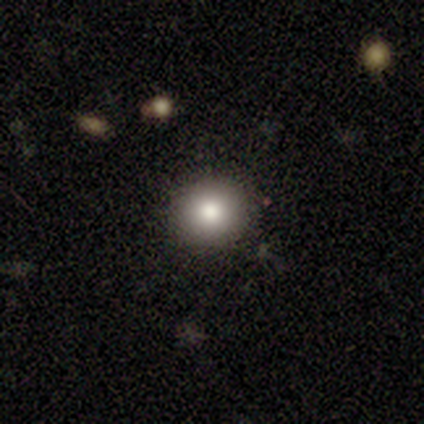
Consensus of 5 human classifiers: Q: Smooth or featured?
A: smooth (100%)
Q: How rounded?
A: round (100%)
Q: Merging?
A: none (80%); runner-up: minor disturbance (20%)